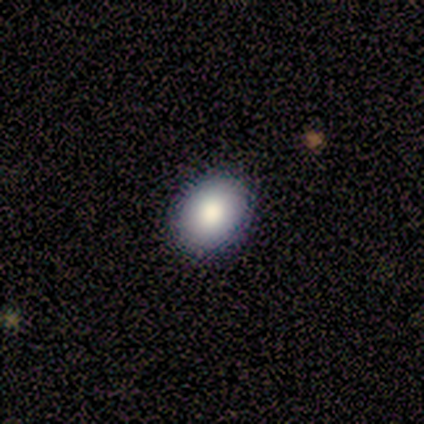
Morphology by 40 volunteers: smooth_or_featured: smooth (p=0.75) [alt: star or artifact p=0.15]
how_rounded: in between (p=0.63) [alt: round p=0.37]
merging: none (p=0.76) [alt: minor disturbance p=0.21]